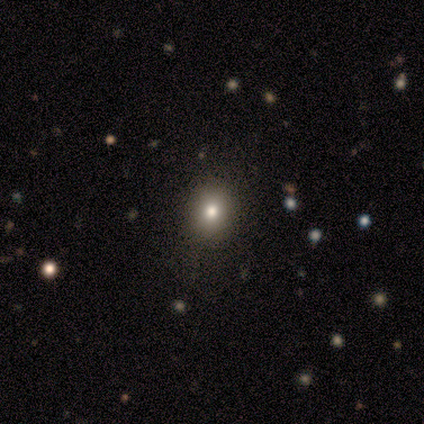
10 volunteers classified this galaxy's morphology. smooth-or-featured: smooth: 80% | star or artifact: 20% | featured or disk: 0%
  how-rounded: round: 62% | in between: 38% | cigar-shaped: 0%
  merging: none: 88% | minor disturbance: 12% | major disturbance: 0% | merger: 0%